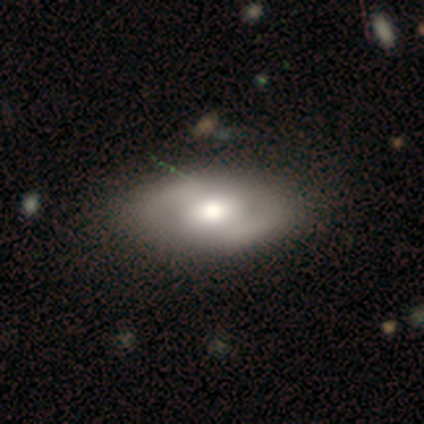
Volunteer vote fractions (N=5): Q: Smooth or featured?
A: featured or disk (60%); runner-up: smooth (40%)
Q: Edge-on disk?
A: no (100%)
Q: Bar?
A: strong (33%); tied with: weak (33%); no (33%)
Q: Spiral arms?
A: no (67%); runner-up: yes (33%)
Q: Bulge size?
A: large (100%)
Q: Merging?
A: none (80%); runner-up: minor disturbance (20%)